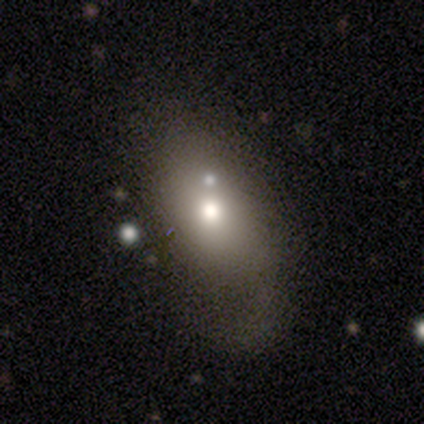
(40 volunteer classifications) Volunteers were most divided on "merging": none: 26%, minor disturbance: 24%, major disturbance: 21%, merger: 16%. More confident: how rounded — in between (81%); smooth or featured — smooth (68%).